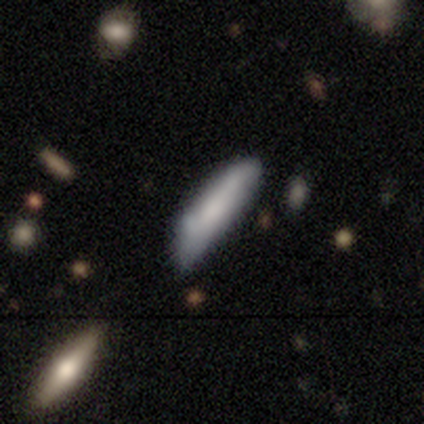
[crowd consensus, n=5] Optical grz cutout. It shows a smooth galaxy with no disk features (80%) that is cigar-shaped (75%). Merging: minor disturbance (60%).